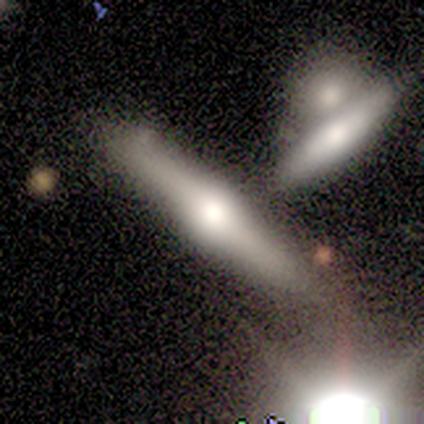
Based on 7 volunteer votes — Volunteers were most divided on "smooth or featured": smooth: 57%, featured or disk: 29%, star or artifact: 14%. More confident: how rounded — cigar-shaped (100%); merging — none (83%).